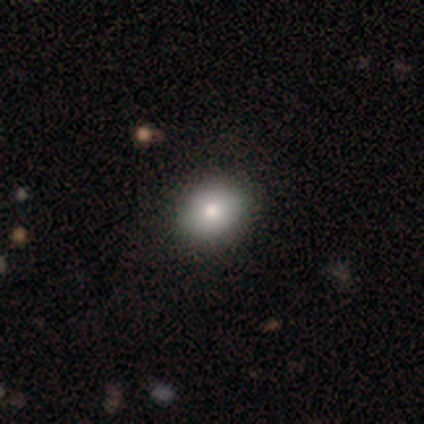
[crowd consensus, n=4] Smooth or featured: smooth — 50% (featured or disk — 25%)
How rounded: round — 100%
Merging: none — 67% (minor disturbance — 33%)